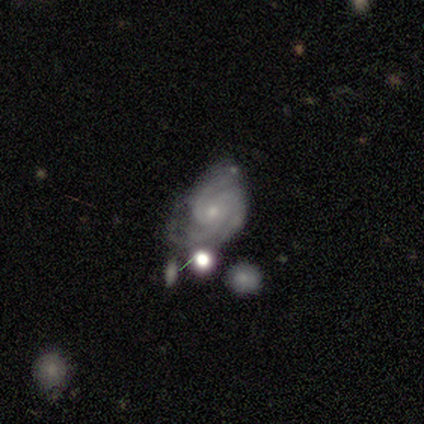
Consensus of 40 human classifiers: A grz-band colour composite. It shows a featured or disk galaxy (85%) with no bar (55%), 3 (68%) tight (65%) spiral arms (94%) and a small central bulge (70%). Merging: none (37%).